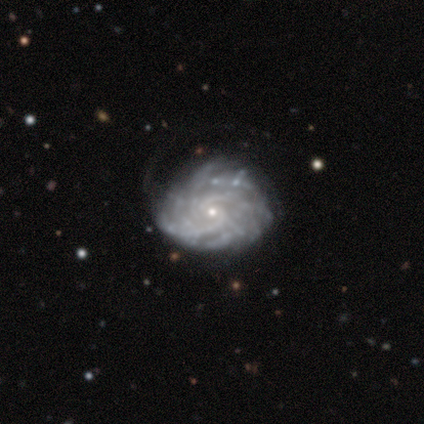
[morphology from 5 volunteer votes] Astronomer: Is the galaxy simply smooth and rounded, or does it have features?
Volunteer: featured or disk — 100%.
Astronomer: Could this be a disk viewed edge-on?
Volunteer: no — 100%.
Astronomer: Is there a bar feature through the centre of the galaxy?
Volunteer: no — 60%.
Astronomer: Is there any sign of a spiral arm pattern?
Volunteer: yes — 100%.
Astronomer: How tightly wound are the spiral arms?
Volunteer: tight — 60% (runner-up: medium, 40%).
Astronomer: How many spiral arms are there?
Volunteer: can't tell — 80%.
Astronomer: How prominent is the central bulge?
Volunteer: small — 100%.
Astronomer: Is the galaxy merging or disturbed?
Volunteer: none — 80%.